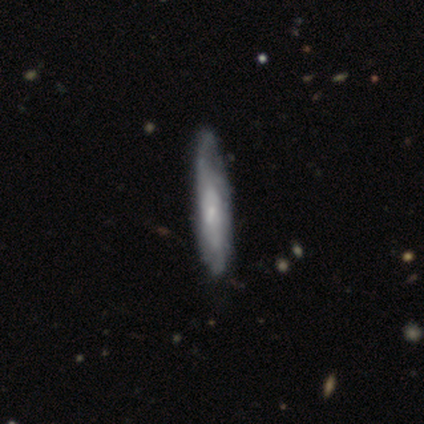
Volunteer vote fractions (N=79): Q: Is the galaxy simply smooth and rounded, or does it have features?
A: featured or disk — 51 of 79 (65%).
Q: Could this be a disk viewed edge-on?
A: yes — 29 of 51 (57%).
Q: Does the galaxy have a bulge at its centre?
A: none — 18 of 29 (62%).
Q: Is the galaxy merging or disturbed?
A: none — 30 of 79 (38%).